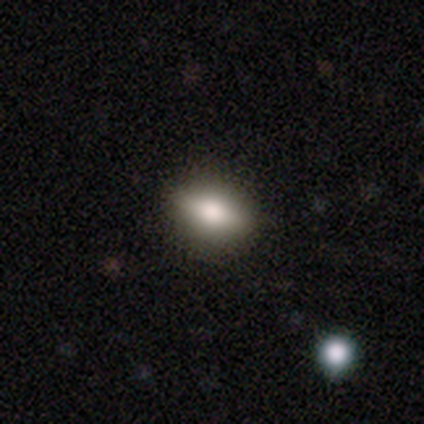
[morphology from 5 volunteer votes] Volunteers were most divided on "smooth or featured": featured or disk: 60%, smooth: 40%, star or artifact: 0%. More confident: edge-on disk — yes (100%); edge-on bulge — rounded (100%); merging — none (100%).